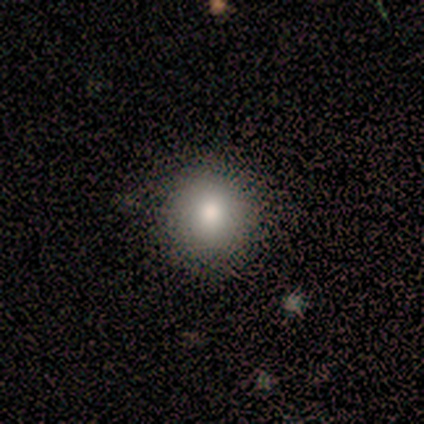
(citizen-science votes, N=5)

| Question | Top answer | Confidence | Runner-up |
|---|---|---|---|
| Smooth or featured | smooth | 80% | star or artifact (20%) |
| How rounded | round | 100% | — |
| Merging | none | 100% | — |